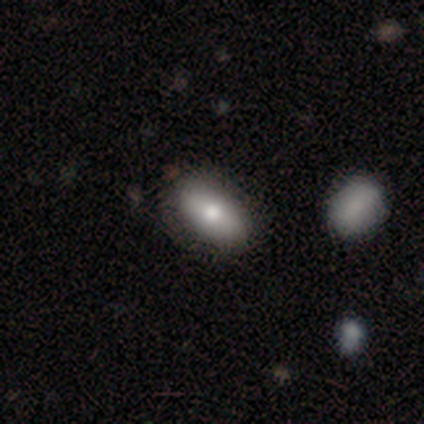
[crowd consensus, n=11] smooth_or_featured: smooth (p=0.82) [alt: featured or disk p=0.18]
how_rounded: in between (p=1.00)
merging: none (p=0.73) [alt: minor disturbance p=0.27]